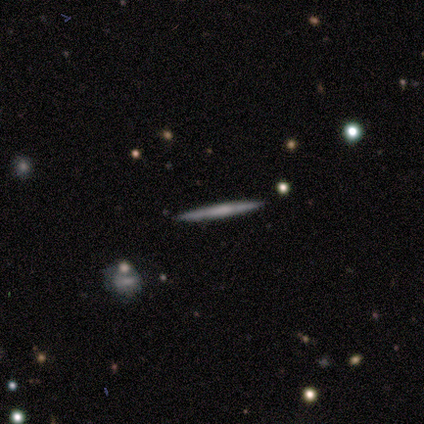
A smooth galaxy with no disk features (80%) that is cigar-shaped (100%).

Vote fractions:
- Smooth or featured? smooth: 80% / featured or disk: 20% / star or artifact: 0%
- How rounded? cigar-shaped: 100% / round: 0% / in between: 0%
- Merging? none: 80% / minor disturbance: 20% / major disturbance: 0% / merger: 0%